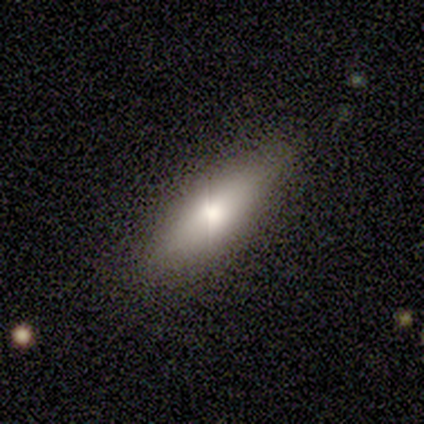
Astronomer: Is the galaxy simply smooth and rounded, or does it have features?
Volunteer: smooth — 60% (runner-up: featured or disk, 40%).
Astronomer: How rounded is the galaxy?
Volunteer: in between — 67%.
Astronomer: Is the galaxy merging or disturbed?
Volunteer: none — 73%.